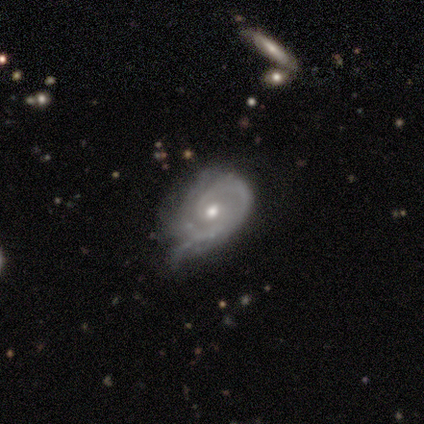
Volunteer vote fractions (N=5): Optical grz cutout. It shows a featured or disk galaxy (80%) with no bar (100%), 2 (50%) tight (75%) spiral arms (100%) and a small central bulge (50%). Merging: minor disturbance (100%).